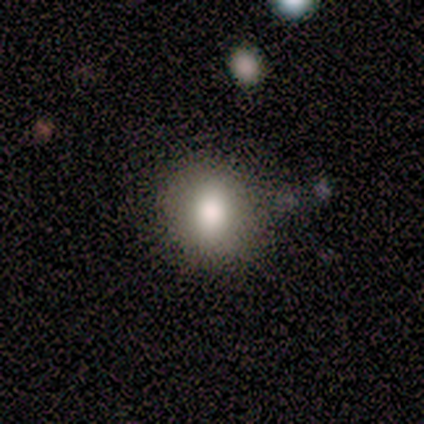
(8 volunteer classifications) smooth 75%, featured or disk 25%, star or artifact 0%. Down the decision tree: how rounded — round (50%, tied with in between); merging — none (75%).